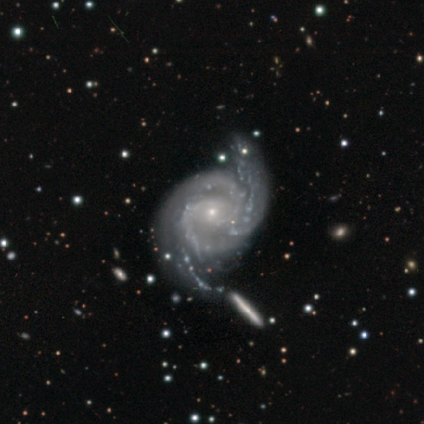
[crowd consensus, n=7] Smooth or featured?
  - featured or disk: 100% *
  - smooth: 0%
  - star or artifact: 0%
Edge-on disk?
  - no: 100% *
  - yes: 0%
Bar?
  - no: 86% *
  - weak: 14%
  - strong: 0%
Spiral arms?
  - yes: 100% *
  - no: 0%
Spiral winding?
  - medium: 71% *
  - tight: 29%
  - loose: 0%
Spiral arm count?
  - 2: 71% *
  - 3: 14%
  - 4: 14%
  - 1: 0%
  - more than 4: 0%
  - can't tell: 0%
Bulge size?
  - small: 86% *
  - moderate: 14%
  - dominant: 0%
  - large: 0%
  - none: 0%
Merging?
  - none: 86% *
  - merger: 14%
  - minor disturbance: 0%
  - major disturbance: 0%